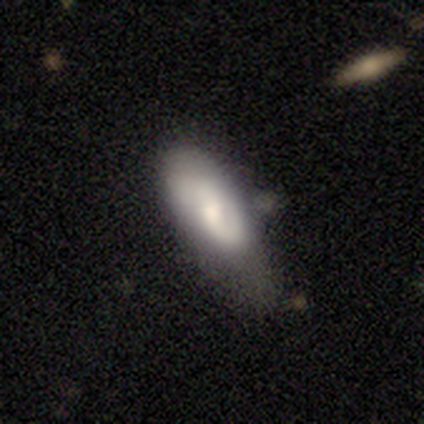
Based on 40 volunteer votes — Smooth or featured? 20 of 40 (50%) said featured or disk. Edge-on disk? 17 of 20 (85%) said no. Bar? 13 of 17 (76%) said no. Spiral arms? 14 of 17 (82%) said yes. Spiral winding? 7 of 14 (50%) said medium. Spiral arm count? 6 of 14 (43%) said 1. Bulge size? 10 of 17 (59%) said moderate. Merging? 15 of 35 (43%) said minor disturbance.